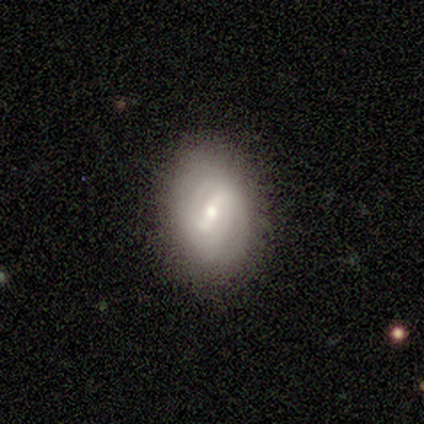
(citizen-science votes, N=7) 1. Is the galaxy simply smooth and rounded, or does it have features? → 86% featured or disk, 14% smooth, 0% star or artifact.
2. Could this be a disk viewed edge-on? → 100% no, 0% yes.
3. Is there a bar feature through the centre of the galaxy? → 67% weak, 17% strong, 17% no.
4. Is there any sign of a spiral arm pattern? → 67% yes, 33% no.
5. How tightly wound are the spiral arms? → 50% tight (tied), 50% medium (tied), 0% loose.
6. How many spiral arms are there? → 75% 2, 25% can't tell, 0% 1, 0% 3, 0% 4, 0% more than 4.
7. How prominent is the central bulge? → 100% small, 0% dominant, 0% large, 0% moderate, 0% none.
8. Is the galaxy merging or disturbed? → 100% none, 0% minor disturbance, 0% major disturbance, 0% merger.